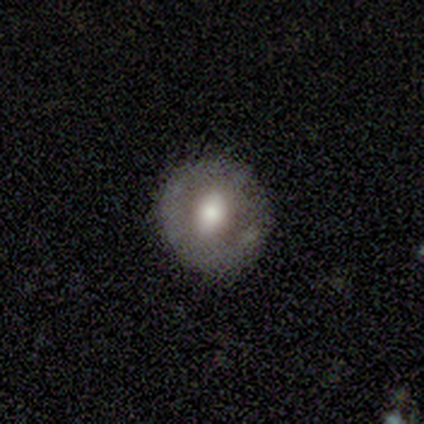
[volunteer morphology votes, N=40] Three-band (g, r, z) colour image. It shows a smooth galaxy with no disk features (52%) that is round (81%). Merging: none (84%).